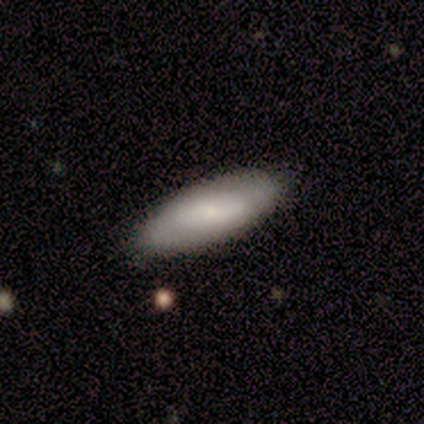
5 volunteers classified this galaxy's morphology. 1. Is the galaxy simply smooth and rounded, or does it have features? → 80% smooth, 20% featured or disk, 0% star or artifact.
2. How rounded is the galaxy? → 100% in between, 0% round, 0% cigar-shaped.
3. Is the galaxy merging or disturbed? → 60% none, 40% minor disturbance, 0% major disturbance, 0% merger.